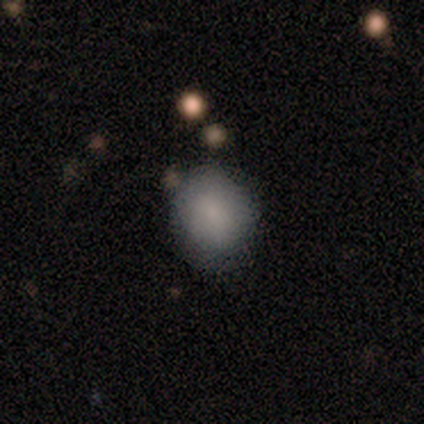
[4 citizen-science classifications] Overall: smooth (75%). How rounded: in between (67%; round 33%). Merging: none (100%).